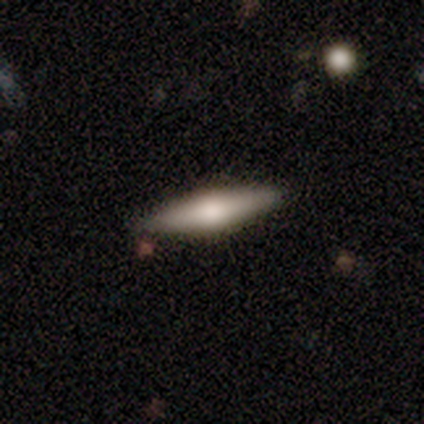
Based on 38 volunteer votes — smooth-or-featured: smooth: 50% | featured or disk: 47% | star or artifact: 3%
  how-rounded: cigar-shaped: 79% | in between: 21% | round: 0%
  merging: none: 92% | minor disturbance: 8% | major disturbance: 0% | merger: 0%